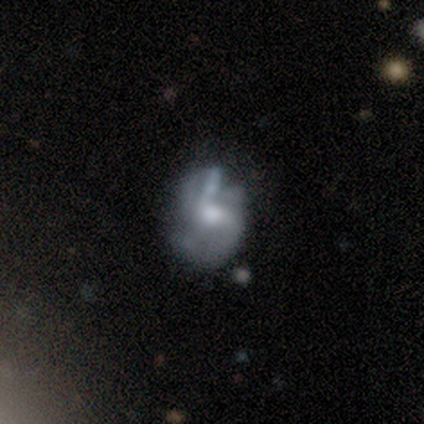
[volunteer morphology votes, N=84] smooth-or-featured: featured or disk: 70% | smooth: 23% | star or artifact: 7%
  disk-edge-on: no: 100% | yes: 0%
    bar: no: 58% | weak: 41% | strong: 2%
    has-spiral-arms: yes: 63% | no: 37%
      spiral-winding: medium: 46% | loose: 35% | tight: 19%
      spiral-arm-count: 2: 68% | can't tell: 22% | 3: 5% | 1: 3% | more than 4: 3% | 4: 0%
    bulge-size: moderate: 59% | small: 19% | large: 17% | dominant: 3% | none: 2%
  merging: minor disturbance: 36% | none: 28% | major disturbance: 26% | merger: 10%